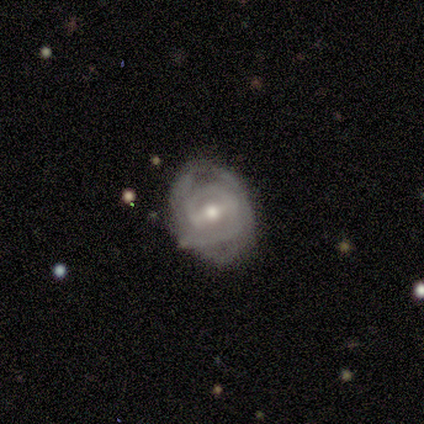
smooth_or_featured: featured or disk (p=0.70) [alt: smooth p=0.20]
disk_edge_on: no (p=1.00)
bar: strong (p=0.57) [alt: weak p=0.43]
has_spiral_arms: yes (p=0.57) [alt: no p=0.43]
spiral_winding: tight (p=0.50) [tied with: medium p=0.50]
spiral_arm_count: 2 (p=0.50) [tied with: can't tell p=0.50]
bulge_size: moderate (p=0.86) [alt: small p=0.14]
merging: none (p=0.44) [alt: minor disturbance p=0.33]